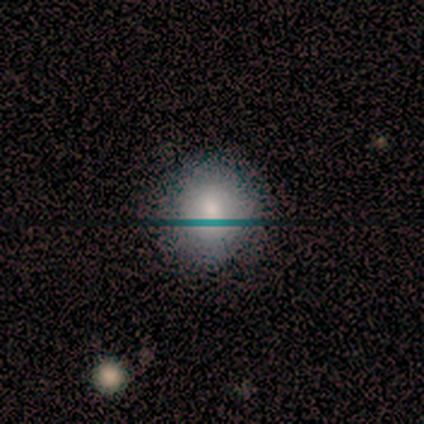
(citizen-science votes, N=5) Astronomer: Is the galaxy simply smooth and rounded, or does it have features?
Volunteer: smooth — 100%.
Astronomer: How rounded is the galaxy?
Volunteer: round — 100%.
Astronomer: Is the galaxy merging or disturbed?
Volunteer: none — 100%.